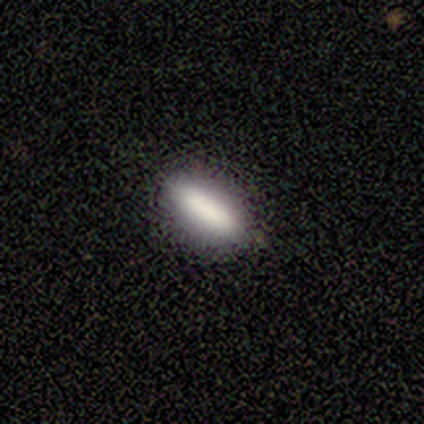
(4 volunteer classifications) smooth 75%, featured or disk 25%, star or artifact 0%. Down the decision tree: how rounded — cigar-shaped (67%); merging — none (100%).